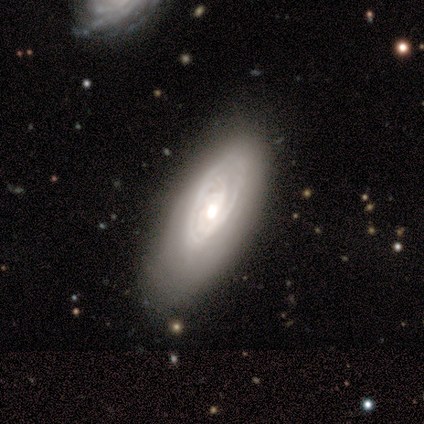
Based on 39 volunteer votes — Volunteers were most divided on "spiral arm count" (2-way tie): 2: 32%, can't tell: 32%, 3: 18%, 4: 11%, 1: 4%, more than 4: 4%. Remaining: edge-on disk — no (94%); spiral arms — yes (90%); smooth or featured — featured or disk (85%); bar — no (84%); spiral winding — tight (82%); bulge size — moderate (61%); merging — none (46%).